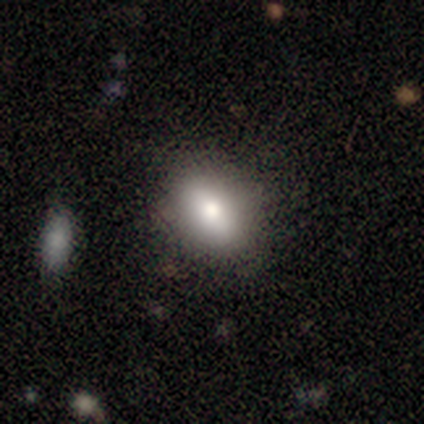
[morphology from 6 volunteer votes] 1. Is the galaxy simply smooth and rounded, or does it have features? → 100% smooth, 0% featured or disk, 0% star or artifact.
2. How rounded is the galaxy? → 67% in between, 33% round, 0% cigar-shaped.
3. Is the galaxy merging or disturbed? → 100% none, 0% minor disturbance, 0% major disturbance, 0% merger.